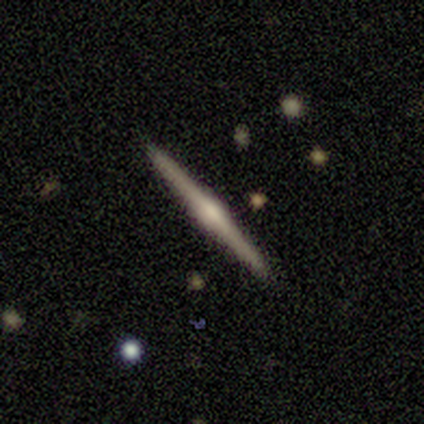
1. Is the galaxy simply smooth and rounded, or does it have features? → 70% featured or disk, 22% smooth, 8% star or artifact.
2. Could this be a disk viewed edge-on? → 96% yes, 4% no.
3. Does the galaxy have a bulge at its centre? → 68% rounded, 24% boxy, 8% none.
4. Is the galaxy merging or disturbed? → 91% none, 6% minor disturbance, 3% major disturbance, 0% merger.